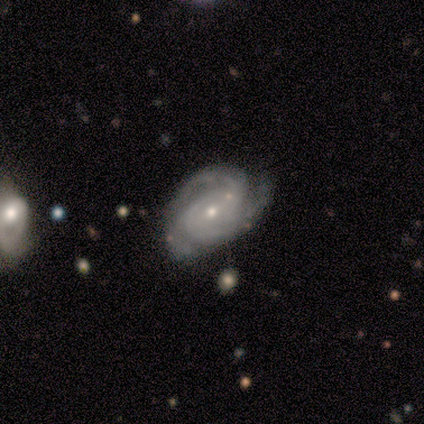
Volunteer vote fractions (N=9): Overall: featured or disk (100%). Edge-on disk: no (100%). Bar: no (89%). Spiral arms: yes (100%). Spiral arm count: 2 (56%; 3 22%). Spiral winding: tight (78%). Bulge size: small (89%). Merging: none (67%; minor disturbance 33%).